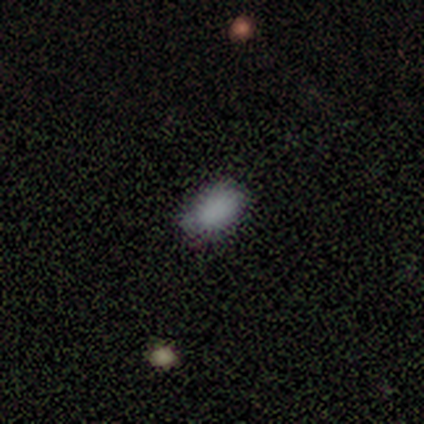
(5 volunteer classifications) Q: Smooth or featured?
A: smooth (100%)
Q: How rounded?
A: in between (80%); runner-up: round (20%)
Q: Merging?
A: none (80%); runner-up: minor disturbance (20%)